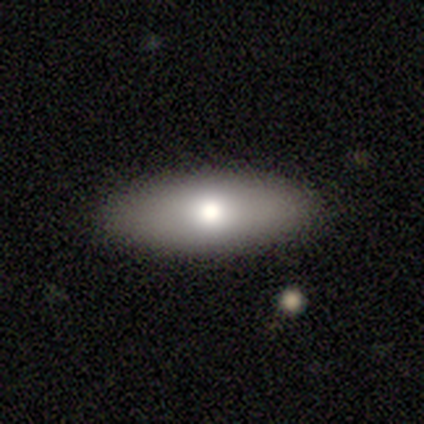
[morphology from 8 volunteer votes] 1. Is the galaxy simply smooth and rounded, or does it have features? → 62% smooth, 38% featured or disk, 0% star or artifact.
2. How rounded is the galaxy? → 60% in between, 20% round, 20% cigar-shaped.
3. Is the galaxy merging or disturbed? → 75% none, 12% minor disturbance, 12% major disturbance, 0% merger.